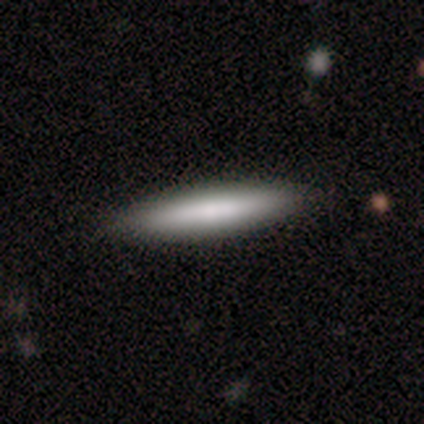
smooth-or-featured: smooth: 73% | featured or disk: 27% | star or artifact: 0%
  how-rounded: cigar-shaped: 100% | round: 0% | in between: 0%
  merging: none: 91% | minor disturbance: 9% | major disturbance: 0% | merger: 0%